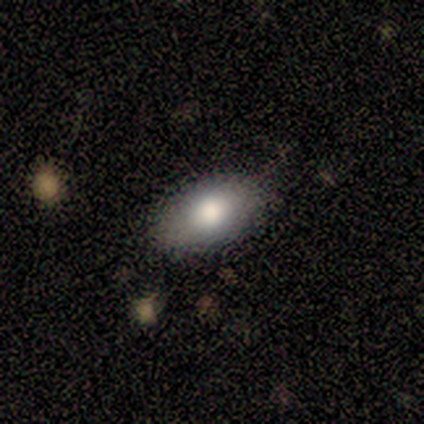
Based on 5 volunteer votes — Overall: smooth (60%; featured or disk 20%). How rounded: in between (100%). Merging: none (100%).